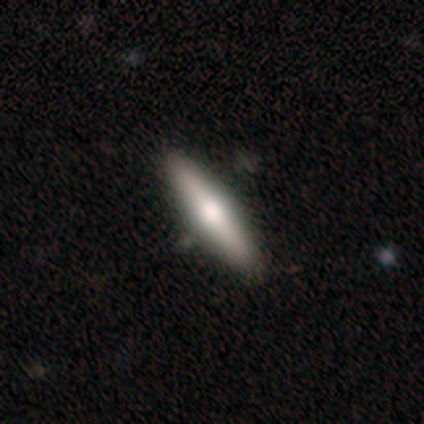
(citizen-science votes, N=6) This is likely a smooth galaxy (67%). How rounded: possibly in between (50%, tied with cigar-shaped). Merging: clearly none (83%).